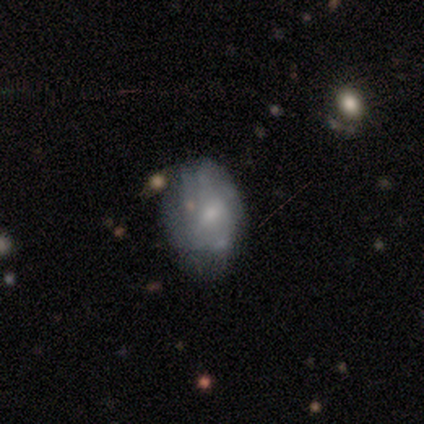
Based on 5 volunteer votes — Smooth or featured? 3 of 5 (60%) said smooth. How rounded? 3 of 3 (100%) said in between. Merging? 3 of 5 (60%) said none.